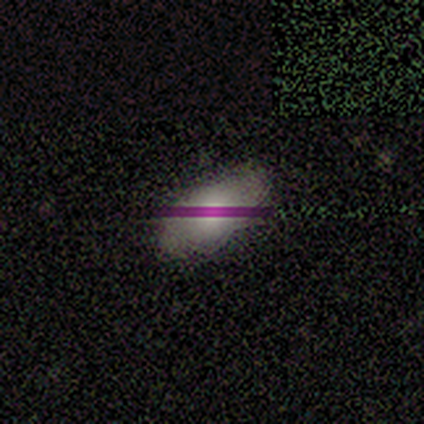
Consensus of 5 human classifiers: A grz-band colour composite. It shows a smooth galaxy with no disk features (80%) that is in between round and cigar-shaped (100%). Merging: none (80%).